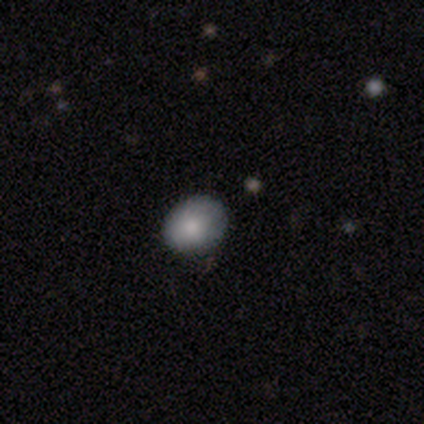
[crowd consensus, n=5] Smooth or featured: smooth — 80% (featured or disk — 20%)
How rounded: round — 75% (in between — 25%)
Merging: none — 100%